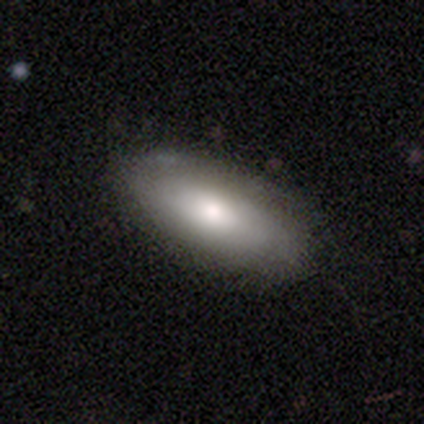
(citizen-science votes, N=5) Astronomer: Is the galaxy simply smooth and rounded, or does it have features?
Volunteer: smooth — 80%.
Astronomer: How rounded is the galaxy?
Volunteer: in between — 100%.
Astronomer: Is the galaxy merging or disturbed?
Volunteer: none — 80%.